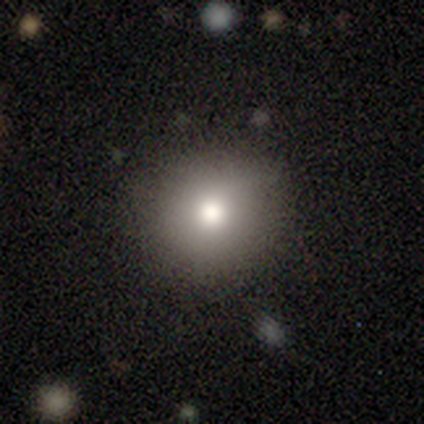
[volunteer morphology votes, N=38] smooth_or_featured: smooth (p=0.68) [alt: featured or disk p=0.16]
how_rounded: round (p=0.77) [alt: in between p=0.23]
merging: none (p=0.81) [alt: minor disturbance p=0.16]